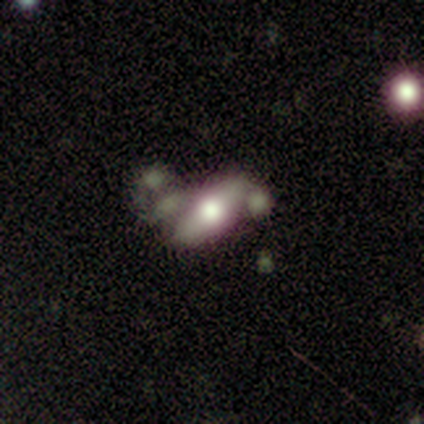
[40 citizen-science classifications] smooth-or-featured: featured or disk: 50% | smooth: 42% | star or artifact: 8%
  disk-edge-on: yes: 50% (tied) | no: 50% (tied)
    edge-on-bulge: rounded: 90% | boxy: 10% | none: 0%
  merging: none: 43% | merger: 32% | minor disturbance: 16% | major disturbance: 8%